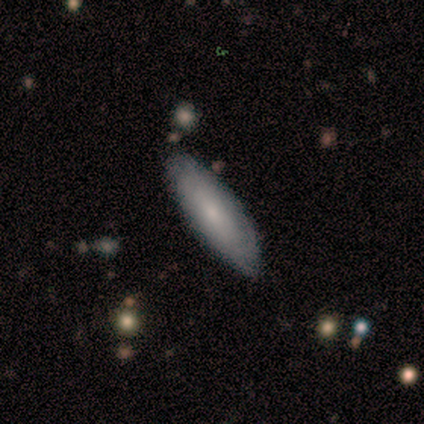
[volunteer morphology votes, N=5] type=smooth (40%, tied with featured or disk); roundness=in between (50%, tied with cigar-shaped); merging=none (75%).